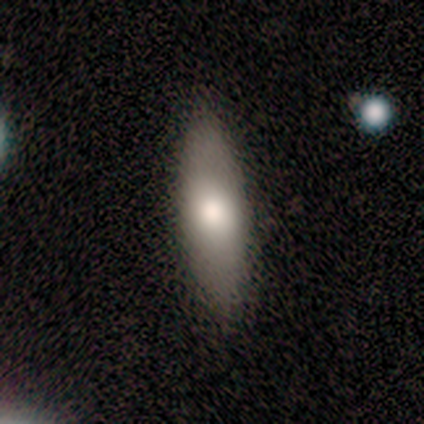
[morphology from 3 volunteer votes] Consensus on every question: smooth or featured — smooth (100%); how rounded — cigar-shaped (100%); merging — none (100%).